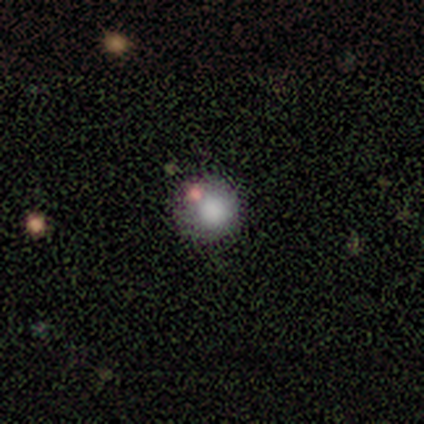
This is clearly a smooth galaxy (80%). How rounded: clearly round (100%). Merging: possibly none (50%, tied with minor disturbance).